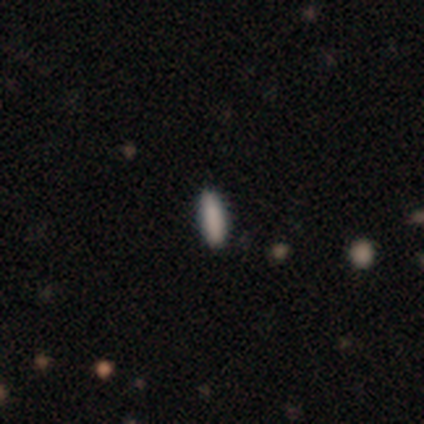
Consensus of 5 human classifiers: smooth 80%, star or artifact 20%, featured or disk 0%. Down the decision tree: how rounded — in between (50%, tied with cigar-shaped); merging — none (75%).